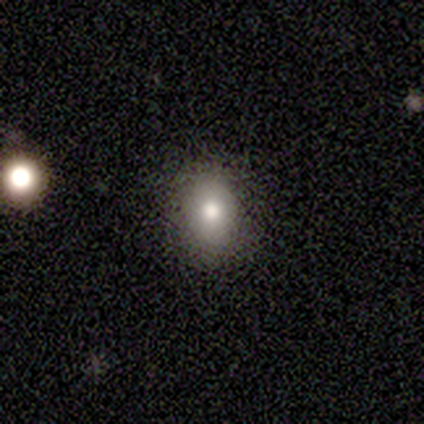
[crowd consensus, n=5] This appears to be a smooth galaxy with no disk features (60%) that is in between round and cigar-shaped (67%). Merging: none (75%).